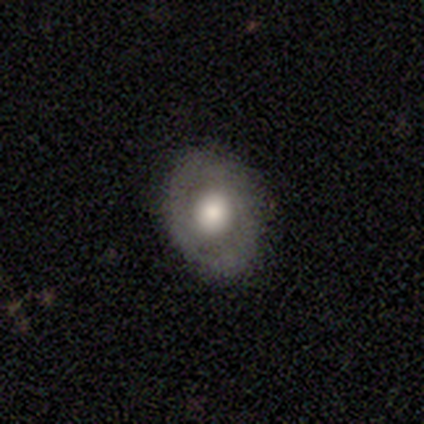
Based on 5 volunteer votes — Smooth or featured: smooth — 60% (featured or disk — 40%)
How rounded: in between — 67% (round — 33%)
Merging: none — 80% (minor disturbance — 20%)